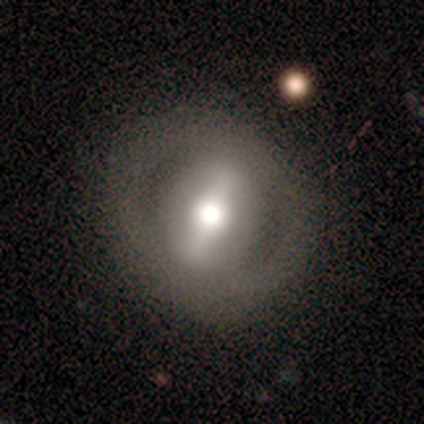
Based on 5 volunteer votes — Volunteers were most divided on "bar": strong: 75%, weak: 25%, no: 0%. More confident: smooth or featured — featured or disk (100%); spiral arms — no (100%); edge-on disk — no (80%); merging — none (80%); bulge size — moderate (75%).